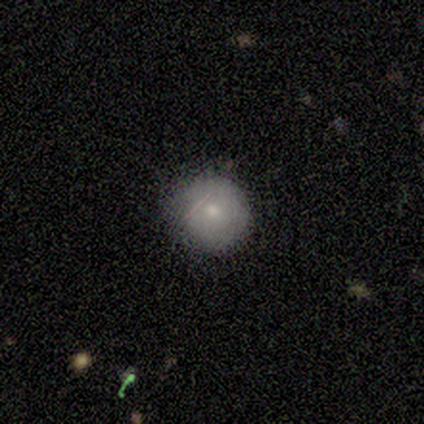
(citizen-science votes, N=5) Q: Smooth or featured?
A: smooth (60%); runner-up: featured or disk (40%)
Q: How rounded?
A: round (100%)
Q: Merging?
A: none (80%); runner-up: minor disturbance (20%)